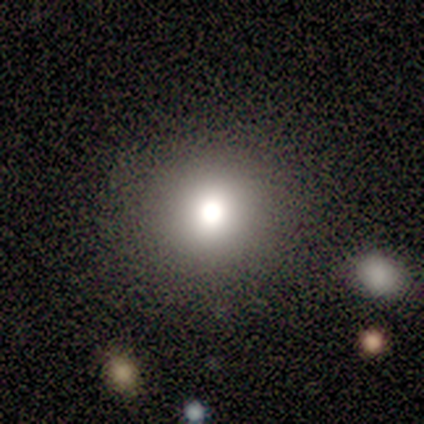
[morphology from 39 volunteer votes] This appears to be a smooth galaxy with no disk features (79%) that is round (97%). Merging: none (91%).